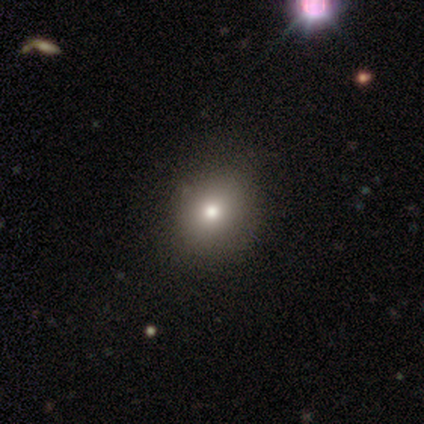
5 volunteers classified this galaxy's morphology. Overall: smooth (100%). How rounded: round (60%; in between 40%). Merging: none (80%).